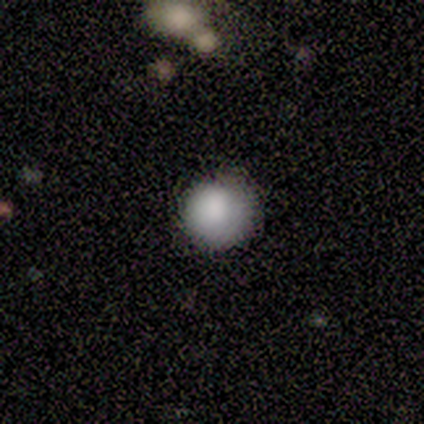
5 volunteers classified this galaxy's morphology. Smooth or featured?
  - smooth: 100% *
  - featured or disk: 0%
  - star or artifact: 0%
How rounded?
  - round: 100% *
  - in between: 0%
  - cigar-shaped: 0%
Merging?
  - none: 100% *
  - minor disturbance: 0%
  - major disturbance: 0%
  - merger: 0%